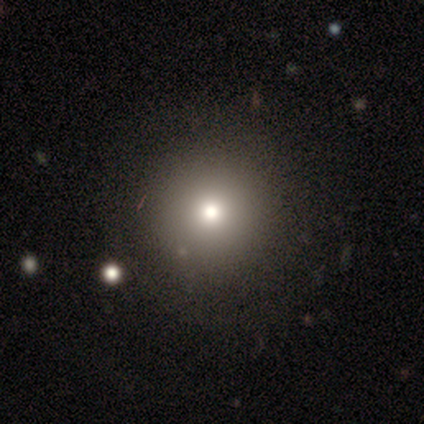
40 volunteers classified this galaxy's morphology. smooth 72%, star or artifact 15%, featured or disk 12%. Down the decision tree: how rounded — round (86%); merging — none (91%).